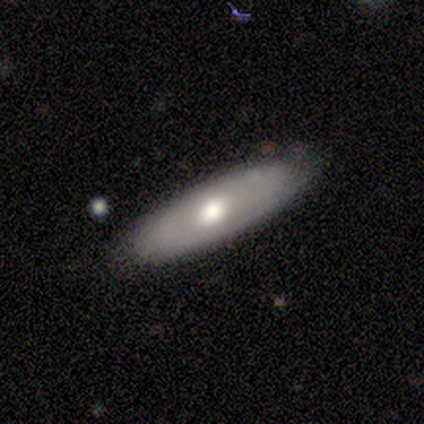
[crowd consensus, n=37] A smooth galaxy with no disk features (68%) that is in between round and cigar-shaped (48%).

Vote fractions:
- Smooth or featured? smooth: 68% / featured or disk: 24% / star or artifact: 8%
- How rounded? in between: 48% / cigar-shaped: 44% / round: 8%
- Merging? none: 76% / minor disturbance: 18% / major disturbance: 6% / merger: 0%